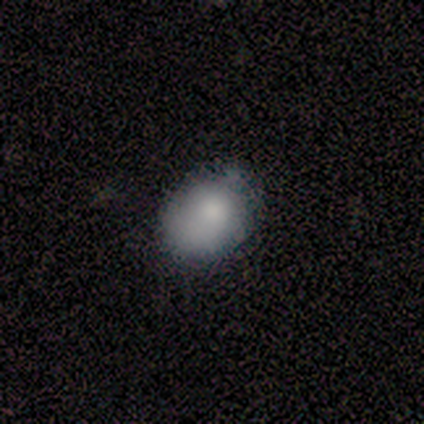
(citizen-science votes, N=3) A smooth galaxy with no disk features (100%) that is round (67%). Merging: minor disturbance (67%).